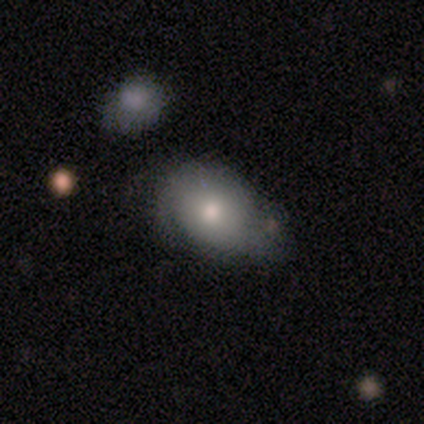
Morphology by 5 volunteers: This appears to be a smooth galaxy with no disk features (80%) that is in between round and cigar-shaped (100%). Merging: none (60%).